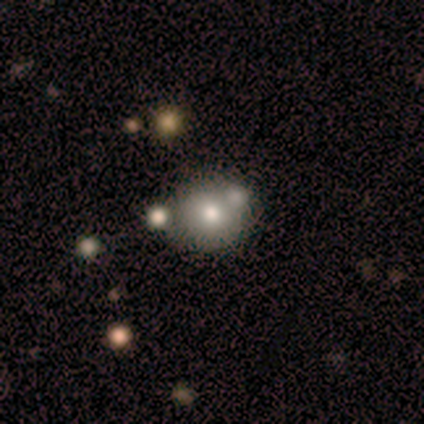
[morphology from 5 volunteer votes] Smooth or featured: smooth — 60% (featured or disk — 20%)
How rounded: round — 100%
Merging: none — 50% (tied with merger — 50%)